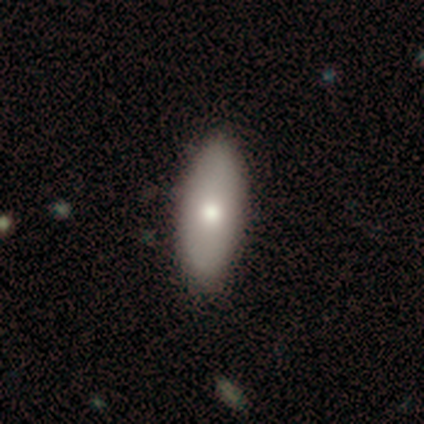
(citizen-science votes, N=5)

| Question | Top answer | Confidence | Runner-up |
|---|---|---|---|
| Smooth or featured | smooth | 80% | featured or disk (20%) |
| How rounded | in between | 50% | tied: cigar-shaped (50%) |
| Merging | none | 80% | minor disturbance (20%) |